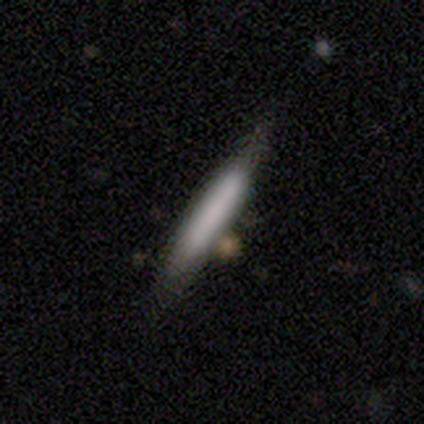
Volunteers were most divided on "smooth or featured" (2-way tie): smooth: 50%, featured or disk: 50%, star or artifact: 0%. More confident: how rounded — cigar-shaped (100%); merging — merger (75%).